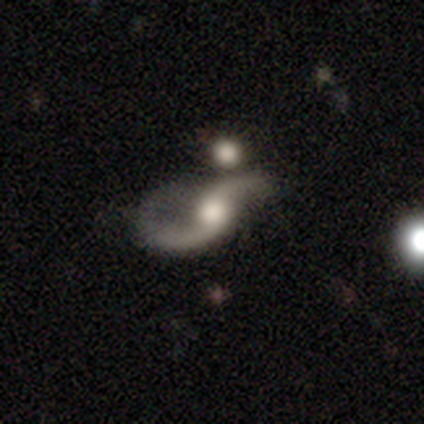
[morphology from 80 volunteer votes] A featured or disk galaxy (90%) with no bar (72%), 2 (97%) loose (81%) spiral arms (94%) and a moderate central bulge (55%).

Vote fractions:
- Smooth or featured? featured or disk: 90% / star or artifact: 8% / smooth: 2%
- Edge-on disk? no: 99% / yes: 1%
- Bar? no: 72% / weak: 18% / strong: 10%
- Spiral arms? yes: 94% / no: 6%
- Spiral winding? loose: 81% / medium: 16% / tight: 3%
- Spiral arm count? 2: 97% / 1: 3% / 3: 0% / 4: 0% / more than 4: 0% / can't tell: 0%
- Bulge size? moderate: 55% / large: 32% / small: 7% / dominant: 3% / none: 3%
- Merging? none: 31% (tied) / minor disturbance: 31% (tied) / major disturbance: 24% / merger: 14%